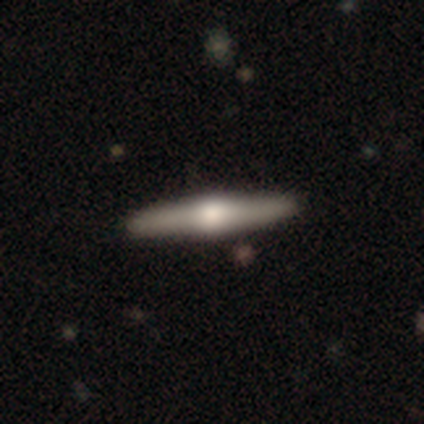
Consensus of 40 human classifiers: Q: Smooth or featured?
A: featured or disk (75%); runner-up: smooth (20%)
Q: Edge-on disk?
A: yes (97%); runner-up: no (3%)
Q: Edge-on bulge?
A: rounded (97%); runner-up: boxy (3%)
Q: Merging?
A: none (68%); runner-up: minor disturbance (5%)